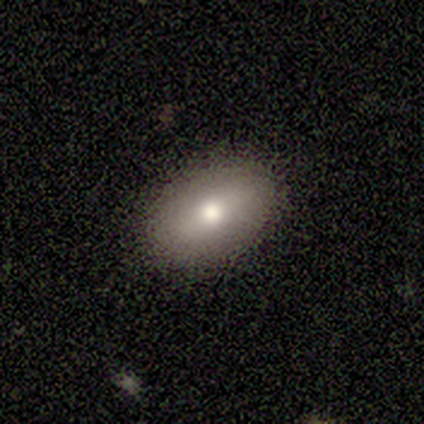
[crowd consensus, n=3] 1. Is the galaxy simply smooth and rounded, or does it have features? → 100% smooth, 0% featured or disk, 0% star or artifact.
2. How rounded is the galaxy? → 100% in between, 0% round, 0% cigar-shaped.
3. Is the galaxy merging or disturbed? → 100% none, 0% minor disturbance, 0% major disturbance, 0% merger.